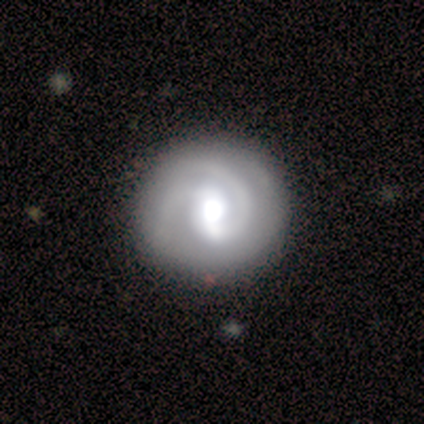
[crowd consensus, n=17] A featured or disk galaxy (82%) with a weak bar (64%), 2 (69%) tight (69%) spiral arms (93%) and a large central bulge (50%).

Vote fractions:
- Smooth or featured? featured or disk: 82% / star or artifact: 12% / smooth: 6%
- Edge-on disk? no: 100% / yes: 0%
- Bar? weak: 64% / strong: 29% / no: 7%
- Spiral arms? yes: 93% / no: 7%
- Spiral winding? tight: 69% / medium: 31% / loose: 0%
- Spiral arm count? 2: 69% / can't tell: 23% / 3: 8% / 1: 0% / 4: 0% / more than 4: 0%
- Bulge size? large: 50% / moderate: 36% / dominant: 7% / small: 7% / none: 0%
- Merging? none: 80% / minor disturbance: 13% / major disturbance: 7% / merger: 0%